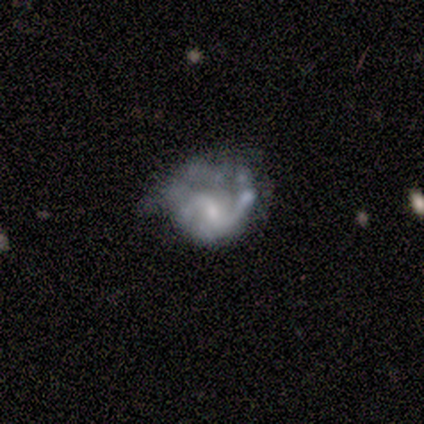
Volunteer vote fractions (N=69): This appears to be a featured or disk galaxy (75%) with a weak bar (60%), 2 (72%) loose (44%) spiral arms (75%) and a small central bulge (44%). Merging: major disturbance (44%).